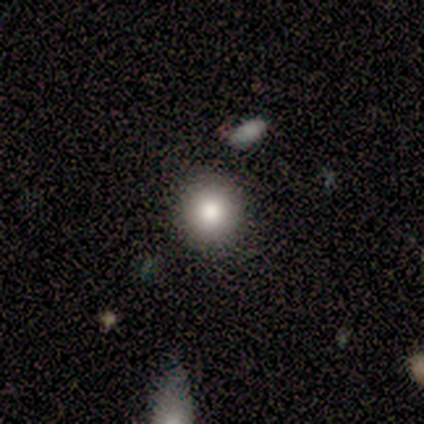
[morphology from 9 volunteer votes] This is clearly a smooth galaxy (89%). How rounded: clearly round (100%). Merging: clearly none (89%).